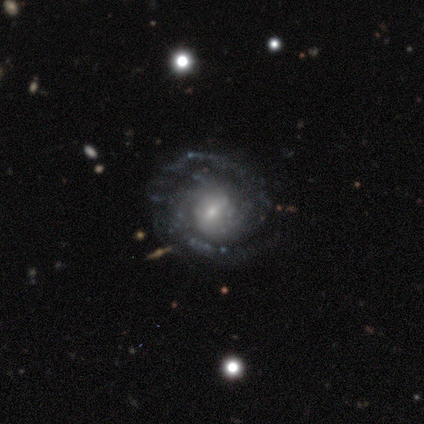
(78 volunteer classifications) Smooth or featured?
  - featured or disk: 96% *
  - star or artifact: 3%
  - smooth: 1%
Edge-on disk?
  - no: 100% *
  - yes: 0%
Bar?
  - weak: 61% *
  - no: 29%
  - strong: 9%
Spiral arms?
  - yes: 99% *
  - no: 1%
Spiral winding?
  - tight: 64% *
  - medium: 22%
  - loose: 15%
Spiral arm count?
  - 2: 64% *
  - can't tell: 19%
  - 3: 12%
  - 4: 4%
  - more than 4: 1%
  - 1: 0%
Bulge size?
  - small: 65% *
  - moderate: 27%
  - large: 7%
  - none: 1%
  - dominant: 0%
Merging?
  - none: 46% *
  - major disturbance: 3%
  - merger: 3%
  - minor disturbance: 1%